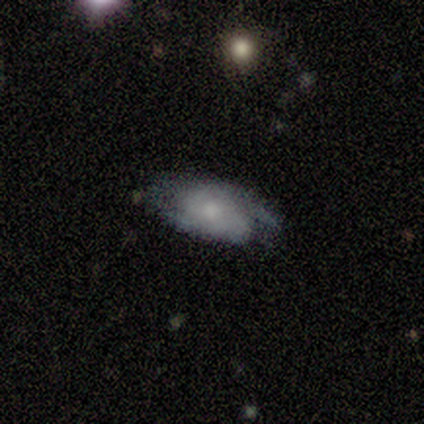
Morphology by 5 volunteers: Smooth or featured? 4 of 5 (80%) said featured or disk. Edge-on disk? 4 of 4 (100%) said no. Bar? 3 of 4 (75%) said no. Spiral arms? 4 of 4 (100%) said yes. Spiral winding? 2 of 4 (50%, tied with loose) said tight. Spiral arm count? 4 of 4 (100%) said 2. Bulge size? 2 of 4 (50%, tied with small) said moderate. Merging? 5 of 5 (100%) said none.